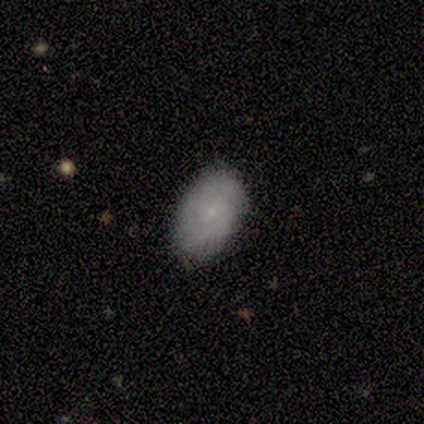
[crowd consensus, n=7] Smooth or featured? smooth (86%)
How rounded? in between (100%)
Merging? none (71%)